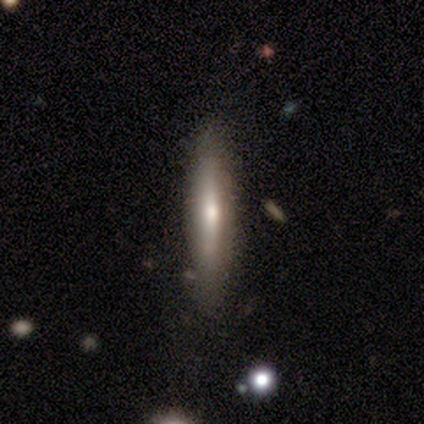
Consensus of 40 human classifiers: smooth_or_featured: smooth (p=0.50) [alt: featured or disk p=0.45]
how_rounded: cigar-shaped (p=1.00)
merging: none (p=0.79) [alt: minor disturbance p=0.13]